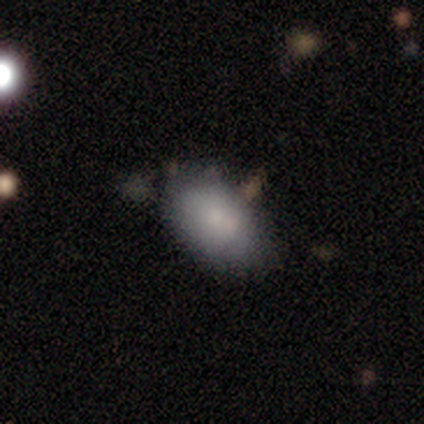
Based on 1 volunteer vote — Smooth or featured: smooth — 100%
How rounded: in between — 100%
Merging: merger — 100%